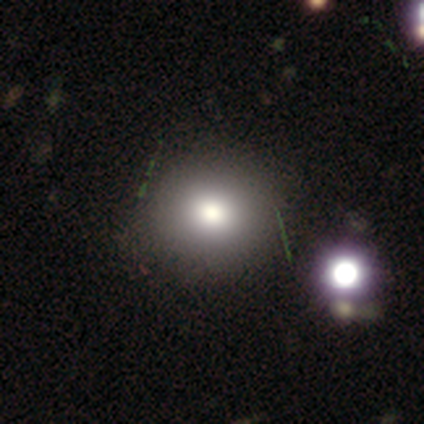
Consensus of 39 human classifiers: Overall: smooth (82%). How rounded: round (91%). Merging: none (52%).